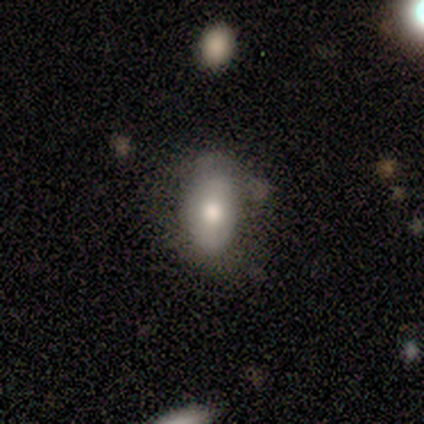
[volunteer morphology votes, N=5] Smooth or featured? 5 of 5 (100%) said smooth. How rounded? 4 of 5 (80%) said in between. Merging? 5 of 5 (100%) said none.